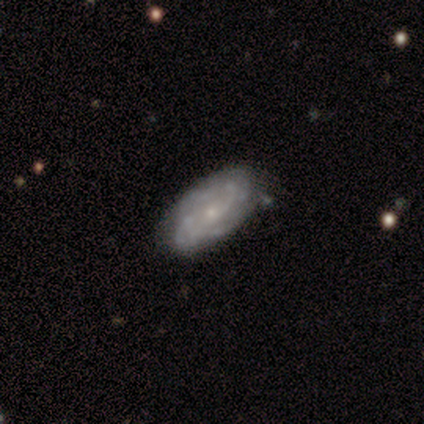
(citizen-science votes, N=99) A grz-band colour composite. It shows a featured or disk galaxy (77%) with no bar (78%), tight (52%) spiral arms (83%) and a small central bulge (74%). Merging: none (66%).